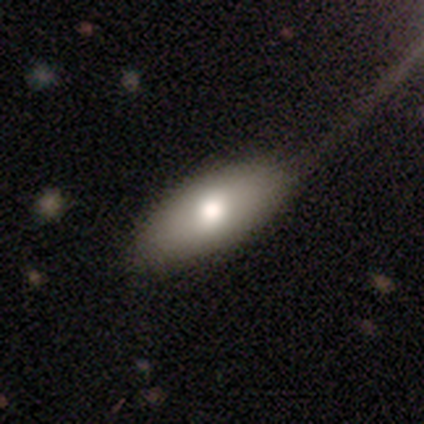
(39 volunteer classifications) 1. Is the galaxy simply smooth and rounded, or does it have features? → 92% smooth, 8% featured or disk, 0% star or artifact.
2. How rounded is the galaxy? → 94% in between, 6% cigar-shaped, 0% round.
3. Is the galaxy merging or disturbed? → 51% none, 13% minor disturbance, 10% major disturbance, 0% merger.